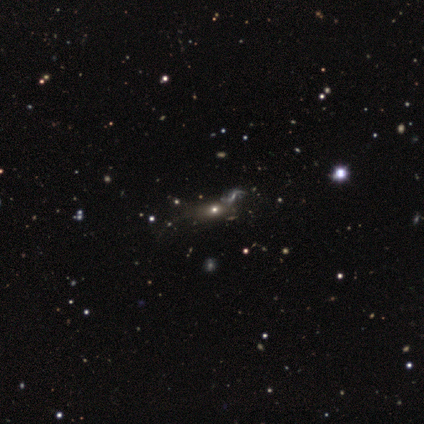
This appears to be a star or artifact, not a galaxy (60%).